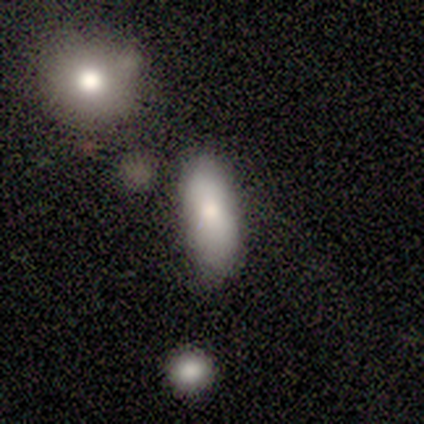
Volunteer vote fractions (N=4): Overall: smooth (75%). How rounded: in between (100%). Merging: none (75%).